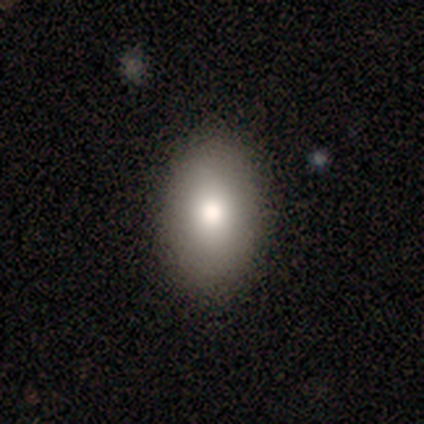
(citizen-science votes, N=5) Volunteers were most divided on "smooth or featured": smooth: 60%, featured or disk: 40%, star or artifact: 0%. More confident: how rounded — in between (100%); merging — none (80%).